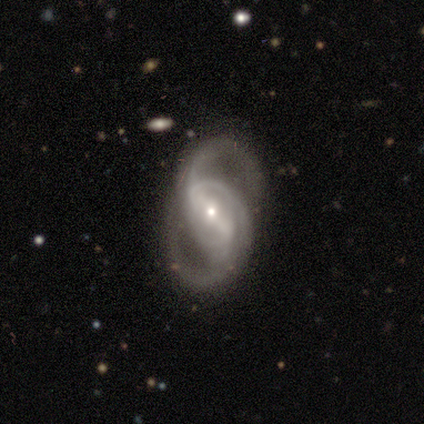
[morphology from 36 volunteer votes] Smooth or featured? featured or disk (92%)
Edge-on disk? no (97%)
Bar? strong (56%)
Spiral arms? yes (94%)
Spiral winding? loose (47%)
Spiral arm count? 2 (87%)
Bulge size? small (69%)
Merging? none (55%)